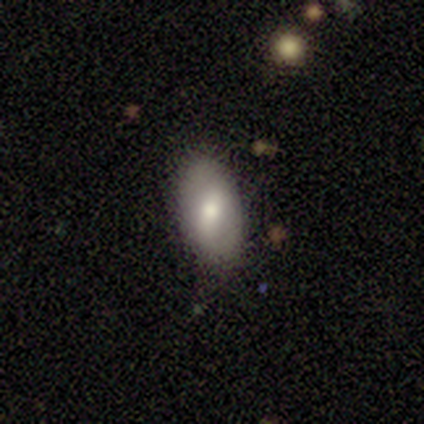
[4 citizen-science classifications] A smooth galaxy with no disk features (100%) that is in between round and cigar-shaped (75%).

Vote fractions:
- Smooth or featured? smooth: 100% / featured or disk: 0% / star or artifact: 0%
- How rounded? in between: 75% / cigar-shaped: 25% / round: 0%
- Merging? none: 75% / minor disturbance: 25% / major disturbance: 0% / merger: 0%